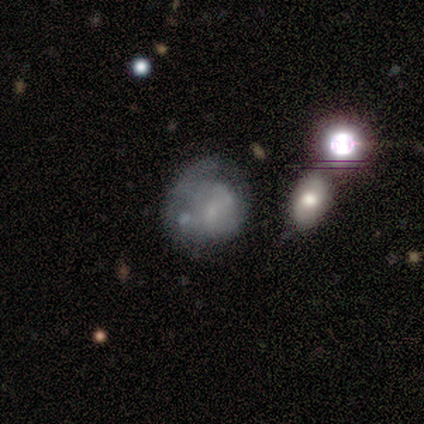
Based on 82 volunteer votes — This appears to be a smooth galaxy with no disk features (45%) that is round (65%). Merging: minor disturbance (38%).